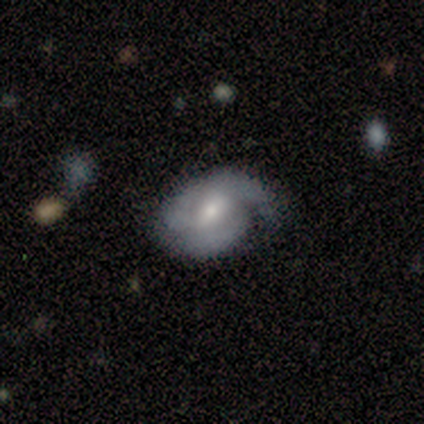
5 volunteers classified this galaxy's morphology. This is clearly a featured or disk galaxy (80%). It is clearly not viewed edge-on (100%). Bar: likely weak (75%). Spiral arm pattern: clearly yes (100%). Spiral arm count: clearly can't tell (100%). Spiral winding: possibly tight (50%, tied with medium). Central bulge: likely small (75%). Merging: likely none (60%).